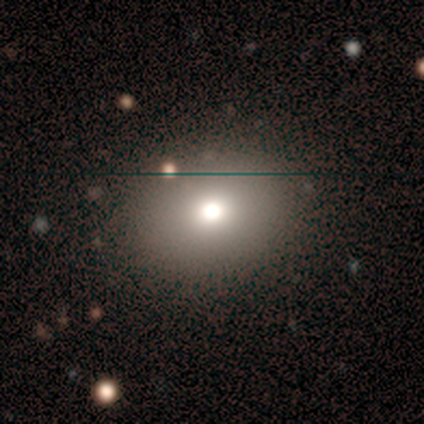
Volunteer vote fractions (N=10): Smooth or featured: smooth — 60% (star or artifact — 40%)
How rounded: round — 83% (in between — 17%)
Merging: none — 83% (minor disturbance — 17%)